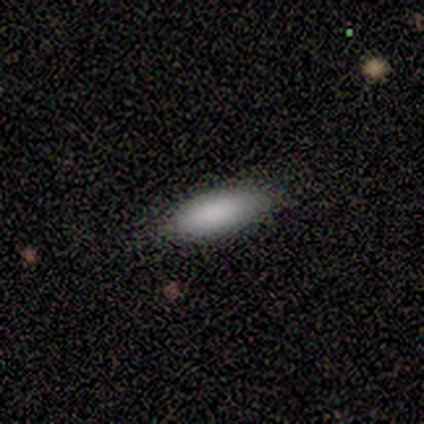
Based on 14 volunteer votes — Smooth or featured? 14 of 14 (100%) said smooth. How rounded? 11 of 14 (79%) said in between. Merging? 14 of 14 (100%) said none.